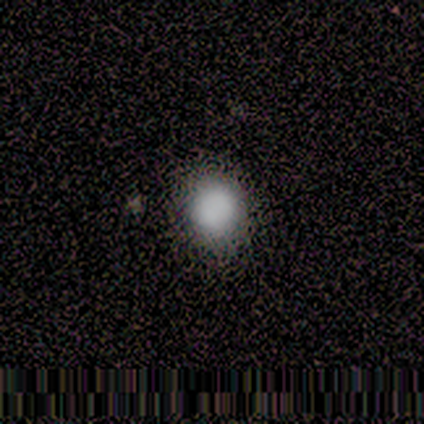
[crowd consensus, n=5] A smooth galaxy with no disk features (80%) that is round (100%). Merging: none (60%).